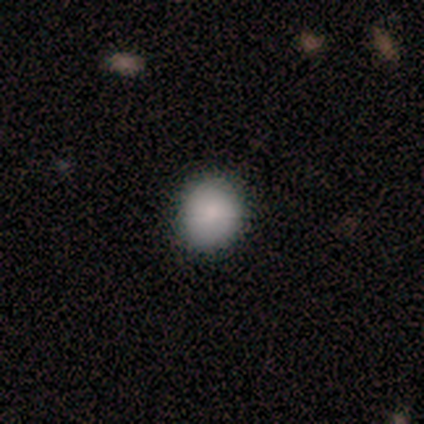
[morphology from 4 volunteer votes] type=smooth (100%); roundness=round (75%); merging=none (100%).